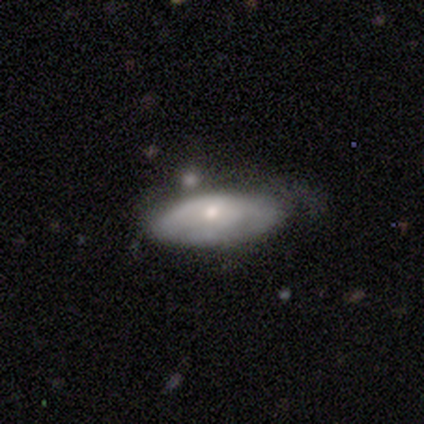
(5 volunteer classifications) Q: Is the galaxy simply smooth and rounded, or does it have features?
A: smooth — 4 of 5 (80%).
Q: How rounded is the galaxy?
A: in between — 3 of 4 (75%).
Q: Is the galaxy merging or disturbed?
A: none — 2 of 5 (40%).